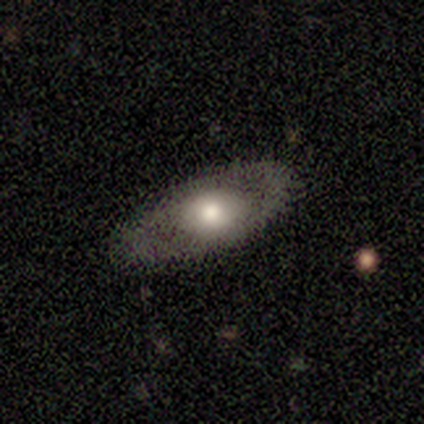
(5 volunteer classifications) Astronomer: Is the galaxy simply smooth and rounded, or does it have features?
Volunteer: featured or disk — 80%.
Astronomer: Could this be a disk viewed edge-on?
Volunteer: yes — 50%, tied with no at 50%.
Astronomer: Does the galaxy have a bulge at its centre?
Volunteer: rounded — 100%.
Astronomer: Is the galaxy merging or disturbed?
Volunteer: none — 100%.